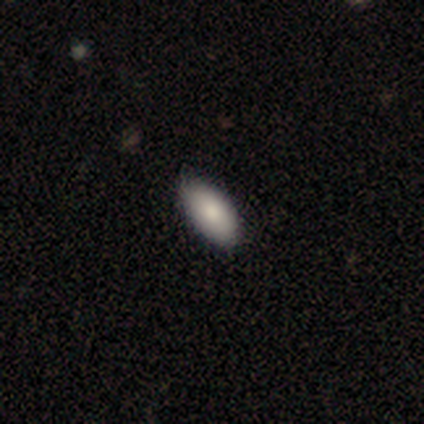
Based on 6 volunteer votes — Q: Smooth or featured?
A: smooth (100%)
Q: How rounded?
A: in between (83%); runner-up: cigar-shaped (17%)
Q: Merging?
A: none (100%)